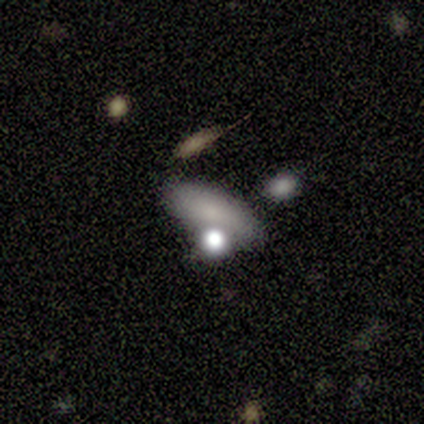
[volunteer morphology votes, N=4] Q: Smooth or featured?
A: smooth (75%); runner-up: featured or disk (25%)
Q: How rounded?
A: round (33%); tied with: in between (33%); cigar-shaped (33%)
Q: Merging?
A: merger (50%); runner-up: none (25%)